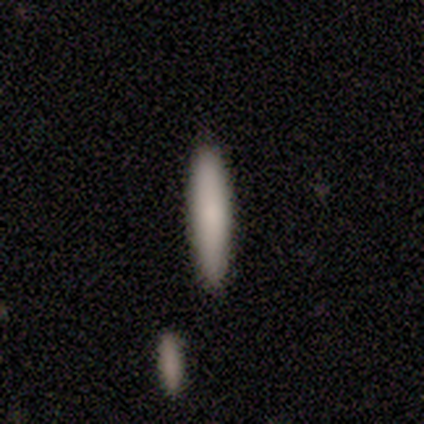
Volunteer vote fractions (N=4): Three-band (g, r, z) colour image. It shows a smooth galaxy with no disk features (100%) that is cigar-shaped (100%). Merging: none (100%).